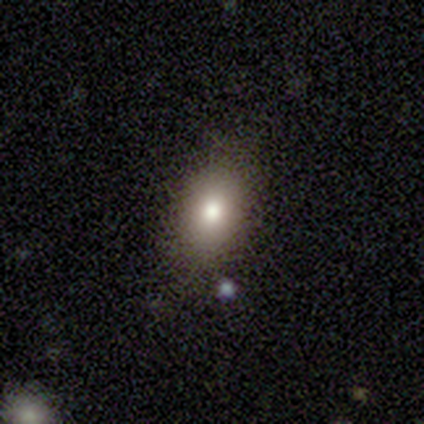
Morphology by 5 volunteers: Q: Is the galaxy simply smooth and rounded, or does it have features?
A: smooth — 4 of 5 (80%).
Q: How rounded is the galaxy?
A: in between — 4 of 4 (100%).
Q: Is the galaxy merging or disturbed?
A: none — 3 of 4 (75%).